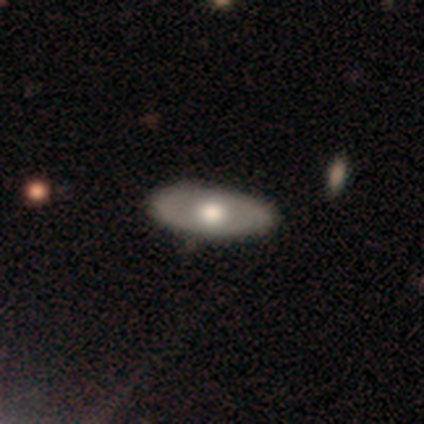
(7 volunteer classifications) smooth-or-featured: smooth: 57% | featured or disk: 43% | star or artifact: 0%
  how-rounded: in between: 75% | round: 25% | cigar-shaped: 0%
  merging: none: 71% | minor disturbance: 29% | major disturbance: 0% | merger: 0%